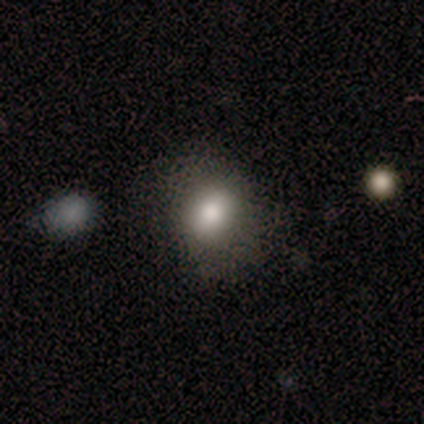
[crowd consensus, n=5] Volunteers were most divided on "how rounded": round: 60%, in between: 40%, cigar-shaped: 0%. More confident: smooth or featured — smooth (100%); merging — none (60%).